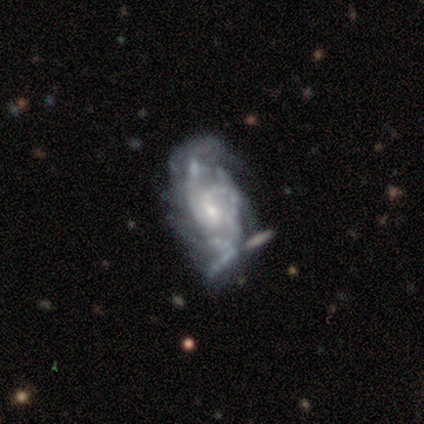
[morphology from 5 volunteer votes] Smooth or featured?
  - featured or disk: 100% *
  - smooth: 0%
  - star or artifact: 0%
Edge-on disk?
  - no: 100% *
  - yes: 0%
Bar?
  - no: 80% *
  - weak: 20%
  - strong: 0%
Spiral arms?
  - yes: 100% *
  - no: 0%
Spiral winding?
  - medium: 60% *
  - tight: 20%
  - loose: 20%
Spiral arm count?
  - 3: 40% *
  - 1: 20%
  - 2: 20%
  - can't tell: 20%
  - 4: 0%
  - more than 4: 0%
Bulge size?
  - moderate: 60% *
  - small: 40%
  - dominant: 0%
  - large: 0%
  - none: 0%
Merging?
  - none: 40% * (tied)
  - major disturbance: 40% * (tied)
  - minor disturbance: 20%
  - merger: 0%